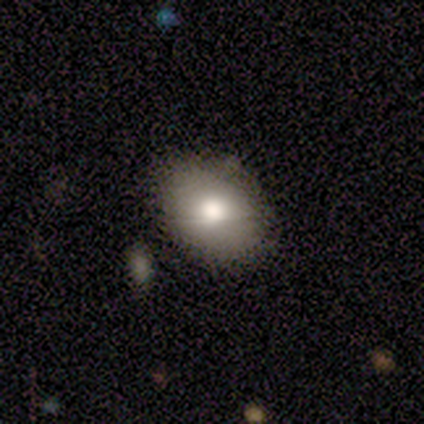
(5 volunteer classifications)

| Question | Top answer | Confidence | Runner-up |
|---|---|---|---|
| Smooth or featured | smooth | 80% | featured or disk (20%) |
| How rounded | in between | 75% | round (25%) |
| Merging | none | 100% | — |